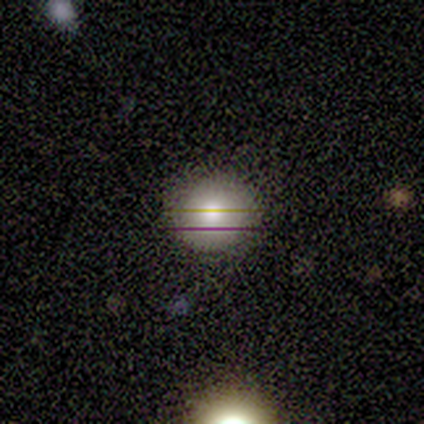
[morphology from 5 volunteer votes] Smooth or featured: smooth — 80% (star or artifact — 20%)
How rounded: round — 100%
Merging: none — 100%